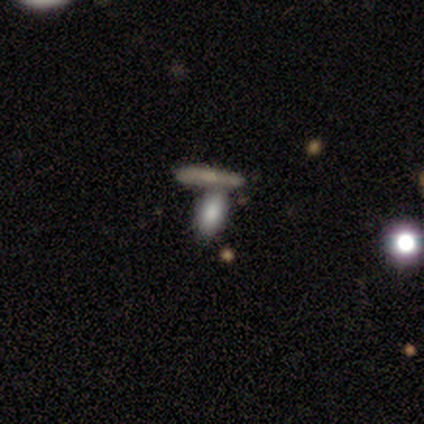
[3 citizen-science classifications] Smooth or featured? 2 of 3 (67%) said smooth. How rounded? 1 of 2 (50%, tied with cigar-shaped) said in between. Merging? 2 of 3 (67%) said none.